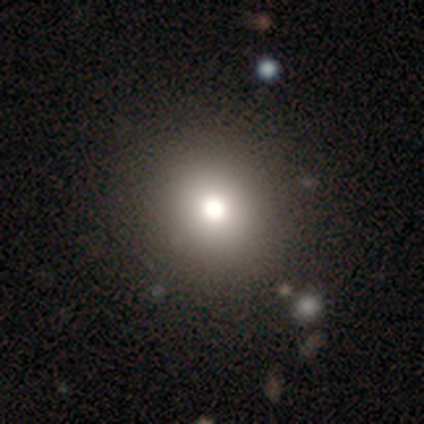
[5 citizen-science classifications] Smooth or featured? smooth (60%)
How rounded? round (100%)
Merging? none (100%)